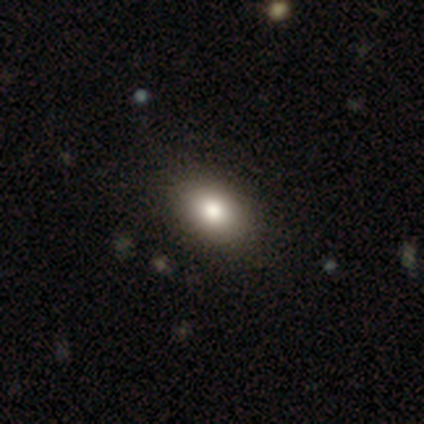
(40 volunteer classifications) Overall: smooth (85%). How rounded: in between (82%). Merging: none (68%).